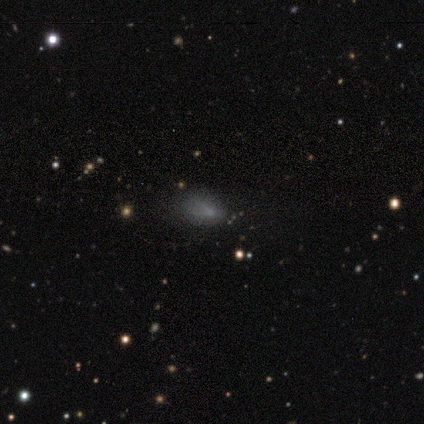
This appears to be a star or artifact, not a galaxy (43%).